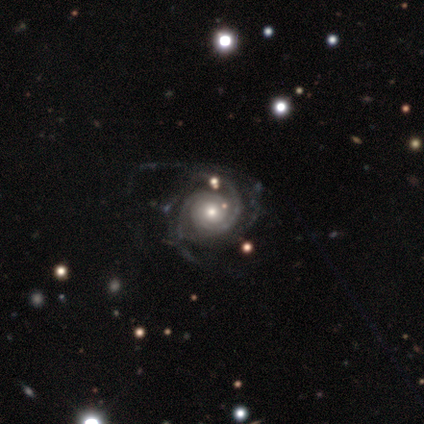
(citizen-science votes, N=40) This is clearly a featured or disk galaxy (92%). It is clearly not viewed edge-on (100%). Bar: clearly no (81%). Spiral arm pattern: clearly yes (100%). Spiral arm count: marginally 3 (41%). Spiral winding: likely tight (62%). Central bulge: likely moderate (62%). Merging: marginally none (45%).